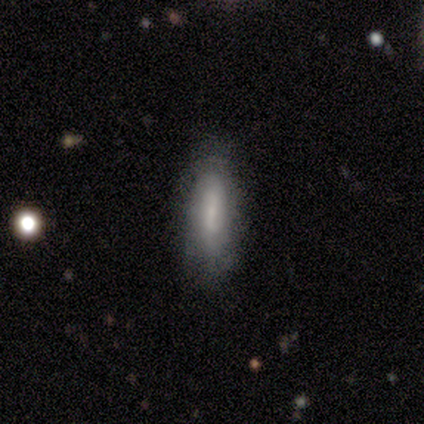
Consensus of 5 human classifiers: Volunteers were most divided on "smooth or featured": smooth: 60%, featured or disk: 40%, star or artifact: 0%. More confident: how rounded — in between (100%); merging — none (80%).